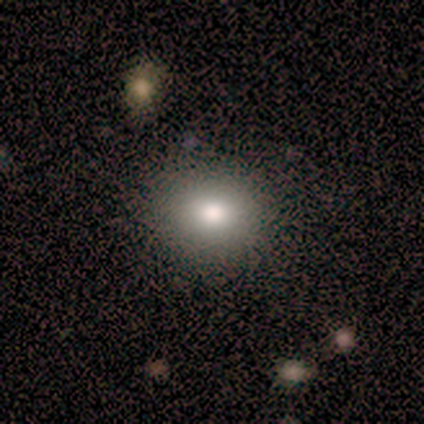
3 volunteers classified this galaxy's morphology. Q: Smooth or featured?
A: smooth (100%)
Q: How rounded?
A: round (67%); runner-up: in between (33%)
Q: Merging?
A: none (67%); runner-up: minor disturbance (33%)